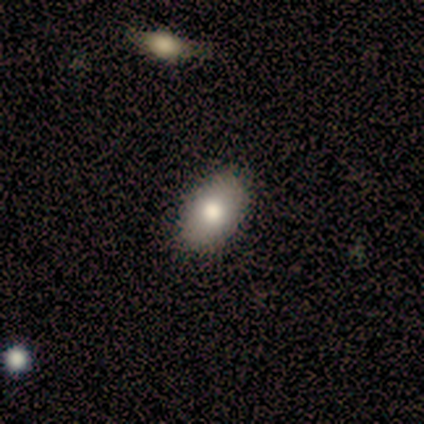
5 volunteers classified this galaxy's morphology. smooth_or_featured: smooth (p=0.80) [alt: featured or disk p=0.20]
how_rounded: in between (p=1.00)
merging: none (p=1.00)